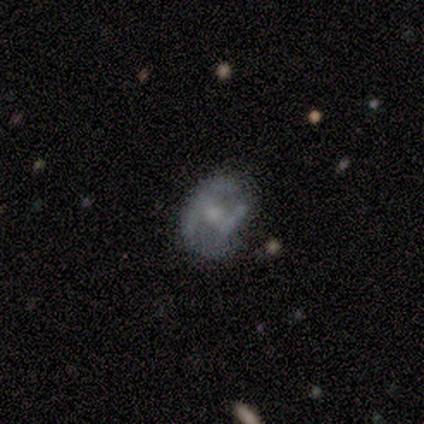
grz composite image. It shows a featured or disk galaxy (80%) with a weak bar (75%), 2 (50%, tied with can't tell) medium (50%) spiral arms (100%) and a small central bulge (75%). Merging: none (40%, tied with minor disturbance).